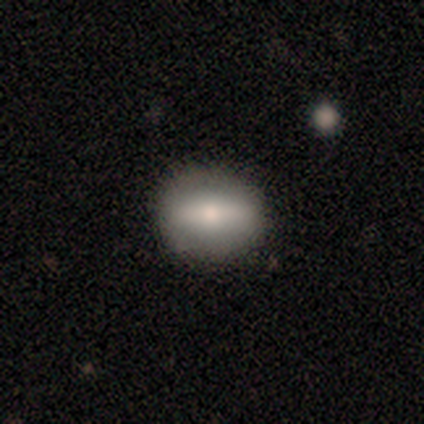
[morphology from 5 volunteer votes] smooth 60%, featured or disk 40%, star or artifact 0%. Down the decision tree: how rounded — in between (67%); merging — none (80%).